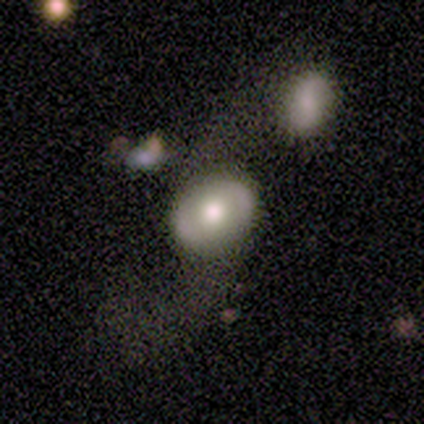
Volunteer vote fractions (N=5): featured or disk 60%, smooth 40%, star or artifact 0%. Down the decision tree: edge-on disk — no (100%); bar — no (100%); spiral arms — no (67%); bulge size — moderate (67%); merging — none (100%).